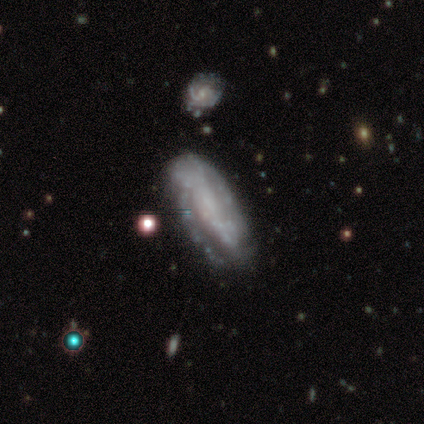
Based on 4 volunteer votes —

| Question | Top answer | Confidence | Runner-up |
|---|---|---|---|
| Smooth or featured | featured or disk | 50% | smooth (25%) |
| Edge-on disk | yes | 50% | tied: no (50%) |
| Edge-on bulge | rounded | 100% | — |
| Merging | none | 100% | — |